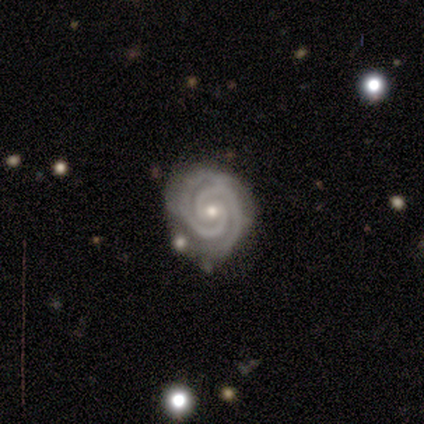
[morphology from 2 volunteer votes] A featured or disk galaxy (100%) with no bar (100%), 2 (100%) tight (100%) spiral arms (100%) and a moderate central bulge (50%, tied with small). Merging: none (50%, tied with minor disturbance).